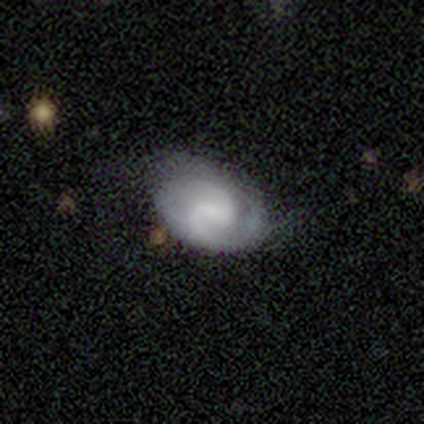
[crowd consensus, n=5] A featured or disk galaxy (60%) with a weak bar (100%), 2 (100%) medium (100%) spiral arms (100%) and a moderate central bulge (50%, tied with none). Merging: none (100%).